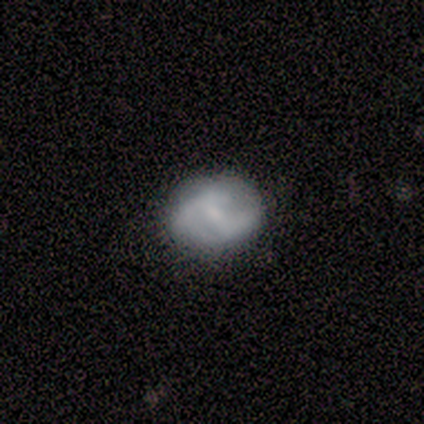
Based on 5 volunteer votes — Smooth or featured: featured or disk — 80% (smooth — 20%)
Edge-on disk: no — 100%
Bar: weak — 50% (tied with no — 50%)
Spiral arms: yes — 50% (tied with no — 50%)
Spiral winding: medium — 100%
Spiral arm count: 2 — 100%
Bulge size: small — 50% (moderate — 25%)
Merging: none — 40% (tied with major disturbance — 40%)